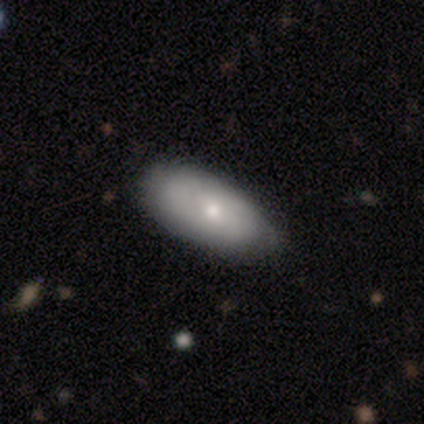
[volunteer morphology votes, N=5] Q: Smooth or featured?
A: smooth (80%); runner-up: featured or disk (20%)
Q: How rounded?
A: in between (100%)
Q: Merging?
A: none (100%)